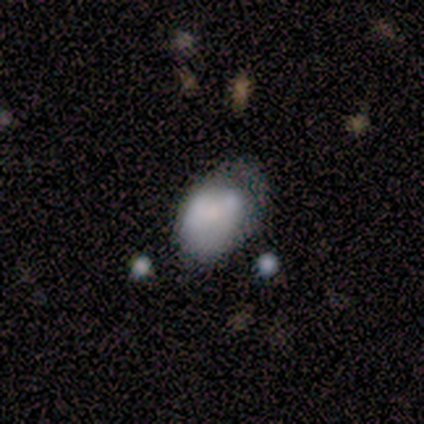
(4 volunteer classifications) Q: Smooth or featured?
A: smooth (100%)
Q: How rounded?
A: in between (100%)
Q: Merging?
A: none (75%); runner-up: minor disturbance (25%)